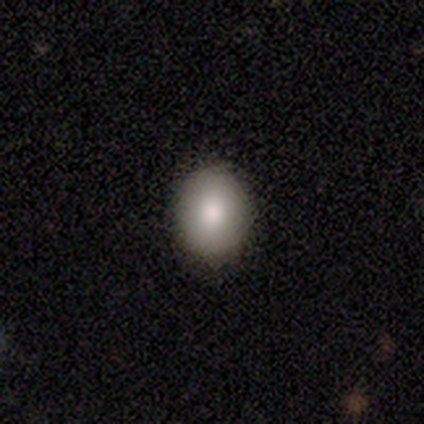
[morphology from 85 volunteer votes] Smooth or featured: smooth — 88% (featured or disk — 9%)
How rounded: in between — 57% (round — 43%)
Merging: none — 86% (minor disturbance — 11%)